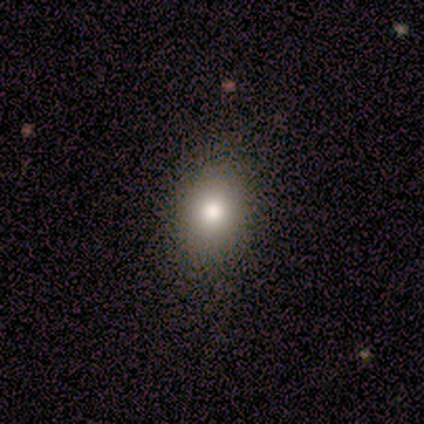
smooth_or_featured: smooth (p=1.00)
how_rounded: round (p=0.60) [alt: in between p=0.40]
merging: none (p=0.80) [alt: minor disturbance p=0.20]